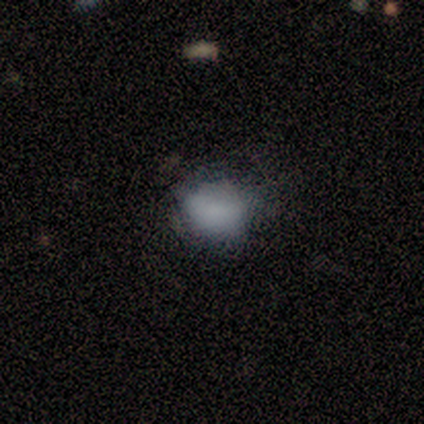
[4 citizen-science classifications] This appears to be a smooth galaxy with no disk features (100%) that is round (50%, tied with in between). Merging: none (50%, tied with major disturbance).